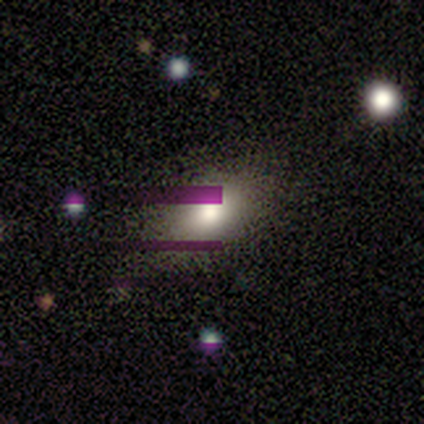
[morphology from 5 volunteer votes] star or artifact 60%, smooth 40%, featured or disk 0%.